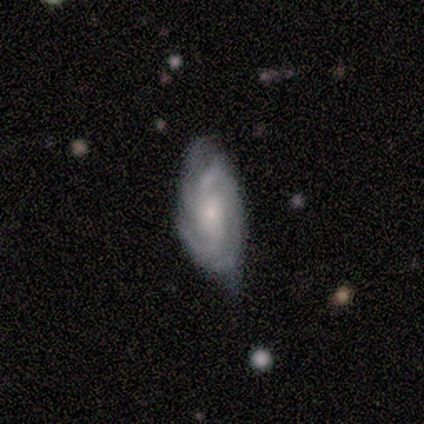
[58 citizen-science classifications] Q: Smooth or featured?
A: featured or disk (78%); runner-up: smooth (22%)
Q: Edge-on disk?
A: no (93%); runner-up: yes (7%)
Q: Bar?
A: no (62%); runner-up: weak (33%)
Q: Spiral arms?
A: yes (90%); runner-up: no (10%)
Q: Spiral winding?
A: tight (50%); runner-up: medium (45%)
Q: Spiral arm count?
A: 2 (32%); tied with: 3 (32%)
Q: Bulge size?
A: small (64%); runner-up: moderate (29%)
Q: Merging?
A: none (57%); runner-up: minor disturbance (36%)